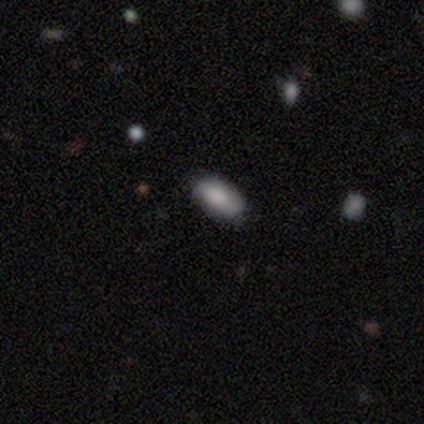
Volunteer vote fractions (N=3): smooth 100%, featured or disk 0%, star or artifact 0%. Down the decision tree: how rounded — in between (100%); merging — none (100%).